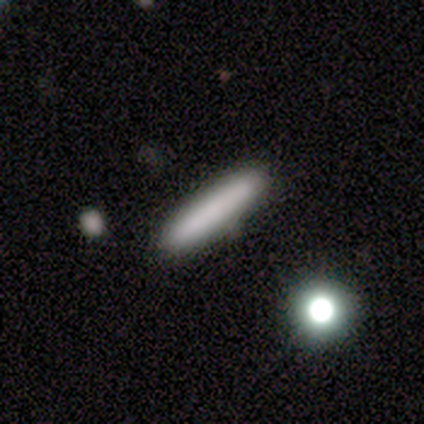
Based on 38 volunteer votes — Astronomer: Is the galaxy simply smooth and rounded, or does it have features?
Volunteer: smooth — 82%.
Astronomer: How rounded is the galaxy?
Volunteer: cigar-shaped — 94%.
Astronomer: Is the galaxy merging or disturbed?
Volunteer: none — 92%.